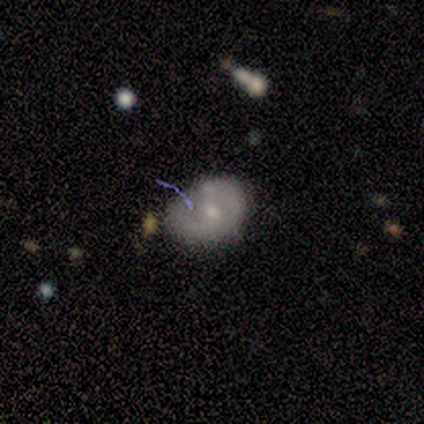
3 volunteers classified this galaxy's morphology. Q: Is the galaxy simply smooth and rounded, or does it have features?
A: smooth — 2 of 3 (67%).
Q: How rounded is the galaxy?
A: in between — 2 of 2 (100%).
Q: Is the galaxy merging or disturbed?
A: minor disturbance — 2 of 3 (67%).